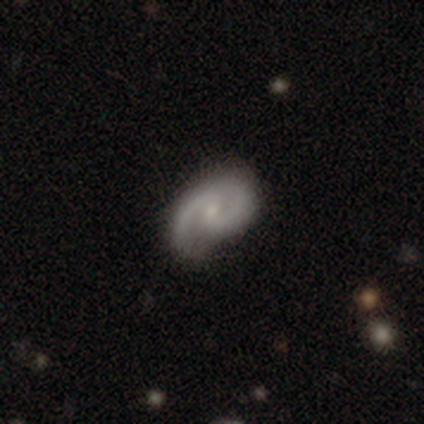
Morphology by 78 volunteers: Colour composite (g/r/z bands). It shows a featured or disk galaxy (91%) with no bar (63%), 2 (81%) medium (57%) spiral arms (99%) and a small central bulge (58%). Merging: none (35%).